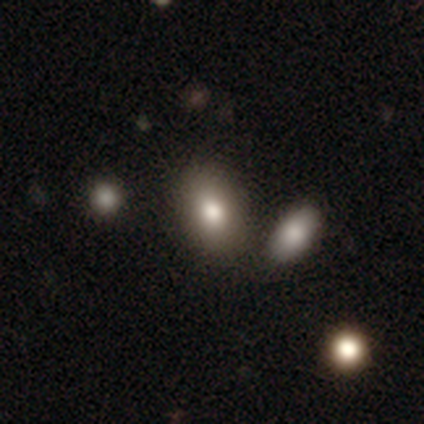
Morphology: type=smooth (79%); roundness=in between (92%); merging=none (77%).